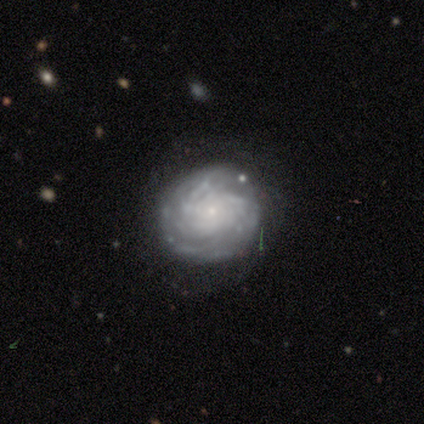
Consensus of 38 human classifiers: This is clearly a featured or disk galaxy (92%). It is clearly not viewed edge-on (97%). Bar: likely no (76%). Spiral arm pattern: likely yes (79%). Spiral arm count: possibly can't tell (56%). Spiral winding: likely tight (78%). Central bulge: clearly small (94%). Merging: likely none (76%).